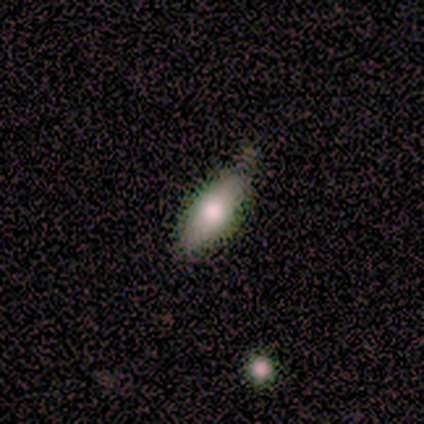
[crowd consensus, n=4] Overall: smooth (100%). How rounded: in between (100%). Merging: none (75%).